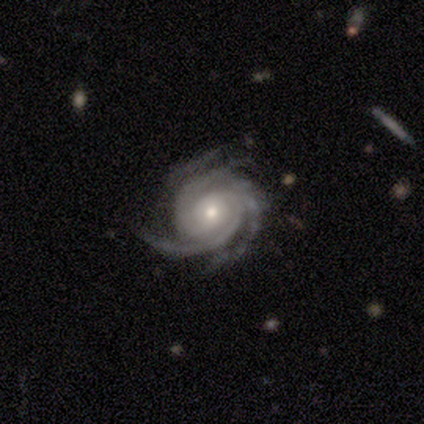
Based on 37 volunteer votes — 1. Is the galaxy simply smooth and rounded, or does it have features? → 92% featured or disk, 5% star or artifact, 3% smooth.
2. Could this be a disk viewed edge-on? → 97% no, 3% yes.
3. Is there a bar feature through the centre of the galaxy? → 70% no, 15% strong, 15% weak.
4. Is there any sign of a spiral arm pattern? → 100% yes, 0% no.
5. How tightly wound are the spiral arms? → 85% tight, 15% medium, 0% loose.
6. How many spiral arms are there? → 48% 3, 21% 4, 15% 2, 12% can't tell, 3% more than 4, 0% 1.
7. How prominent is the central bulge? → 52% small, 48% moderate, 0% dominant, 0% large, 0% none.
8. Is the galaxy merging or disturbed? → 80% none, 17% minor disturbance, 3% merger, 0% major disturbance.